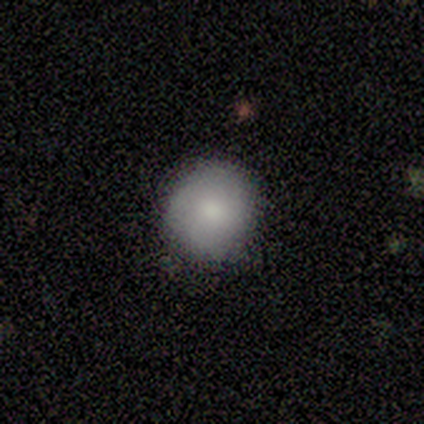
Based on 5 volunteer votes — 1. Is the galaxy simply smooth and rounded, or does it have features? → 100% smooth, 0% featured or disk, 0% star or artifact.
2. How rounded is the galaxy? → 80% round, 20% in between, 0% cigar-shaped.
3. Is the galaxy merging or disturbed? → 80% none, 20% minor disturbance, 0% major disturbance, 0% merger.